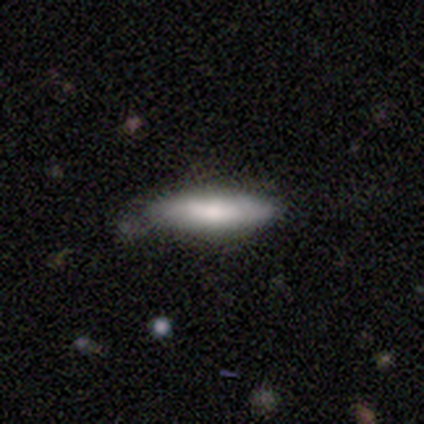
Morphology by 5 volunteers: Smooth or featured?
  - smooth: 60% *
  - featured or disk: 40%
  - star or artifact: 0%
How rounded?
  - in between: 67% *
  - cigar-shaped: 33%
  - round: 0%
Merging?
  - none: 80% *
  - minor disturbance: 20%
  - major disturbance: 0%
  - merger: 0%